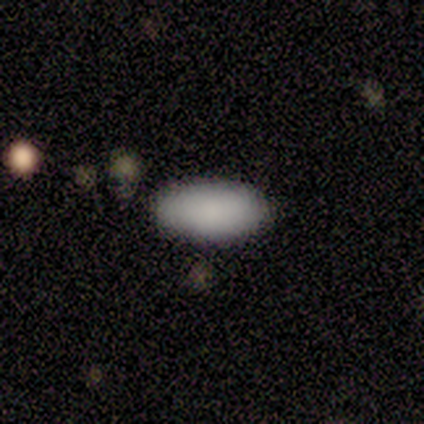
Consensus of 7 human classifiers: Morphology: type=smooth (100%); roundness=in between (100%); merging=none (100%).